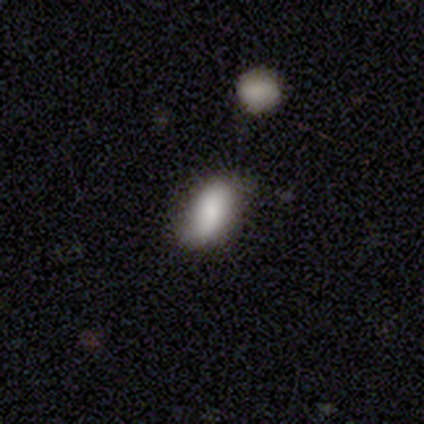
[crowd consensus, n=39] A smooth galaxy with no disk features (82%) that is in between round and cigar-shaped (91%). Merging: none (59%).